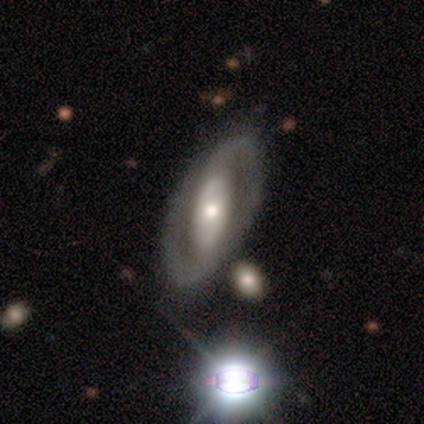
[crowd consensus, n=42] Smooth or featured? 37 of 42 (88%) said featured or disk. Edge-on disk? 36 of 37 (97%) said no. Bar? 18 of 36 (50%) said no. Spiral arms? 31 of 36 (86%) said yes. Spiral winding? 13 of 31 (42%, tied with medium) said tight. Spiral arm count? 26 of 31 (84%) said 2. Bulge size? 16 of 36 (44%) said moderate. Merging? 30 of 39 (77%) said none.